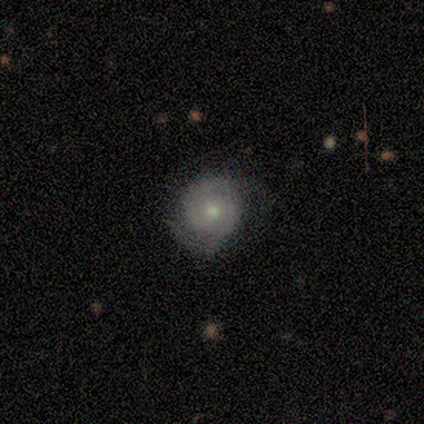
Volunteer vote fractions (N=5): This appears to be a featured or disk galaxy (100%) with no bar (100%), 2 (75%) tight (50%) spiral arms (80%) and a small central bulge (60%). Merging: minor disturbance (60%).